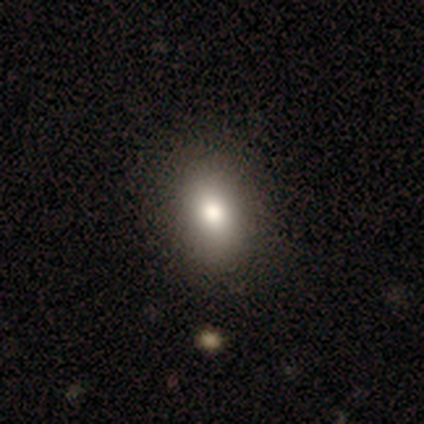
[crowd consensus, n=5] Morphology: type=smooth (100%); roundness=in between (100%); merging=none (100%).